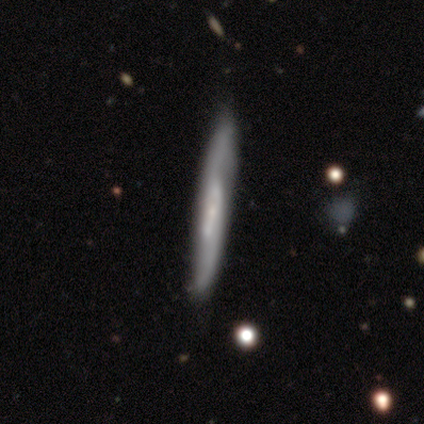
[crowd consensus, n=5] This appears to be a smooth galaxy with no disk features (40%, tied with featured or disk) that is cigar-shaped (100%). Merging: none (100%).